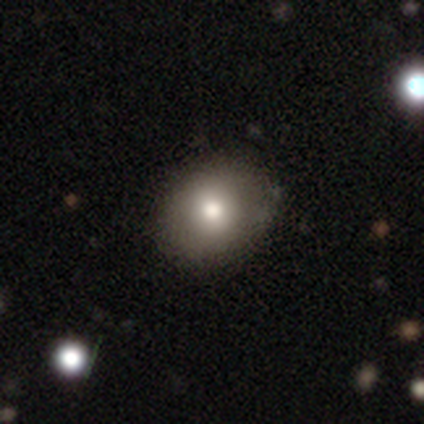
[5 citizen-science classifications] Smooth or featured: featured or disk — 60% (smooth — 40%)
Edge-on disk: no — 100%
Bar: no — 100%
Spiral arms: no — 100%
Bulge size: moderate — 67% (large — 33%)
Merging: none — 80% (minor disturbance — 20%)